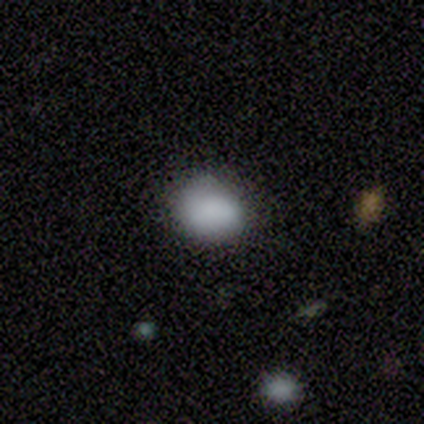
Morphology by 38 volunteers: Overall: smooth (84%). How rounded: in between (56%; round 41%). Merging: none (65%; minor disturbance 29%).